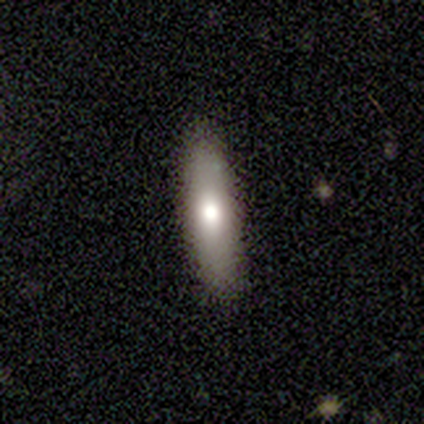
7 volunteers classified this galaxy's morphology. smooth 86%, star or artifact 14%, featured or disk 0%. Down the decision tree: how rounded — cigar-shaped (83%); merging — none (100%).